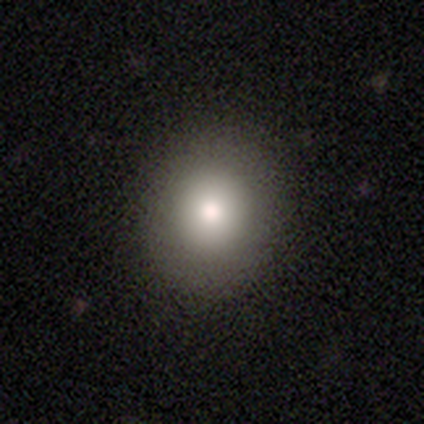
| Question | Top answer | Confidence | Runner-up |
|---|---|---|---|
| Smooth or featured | smooth | 100% | — |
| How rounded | round | 100% | — |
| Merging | none | 67% | major disturbance (33%) |